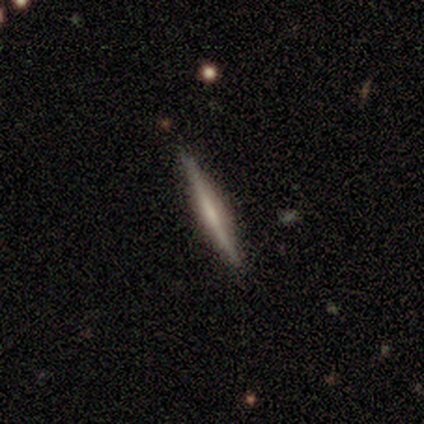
Morphology: type=featured or disk (62%); edge-on=yes (100%); edge-on bulge=none (62%); merging=none (91%).